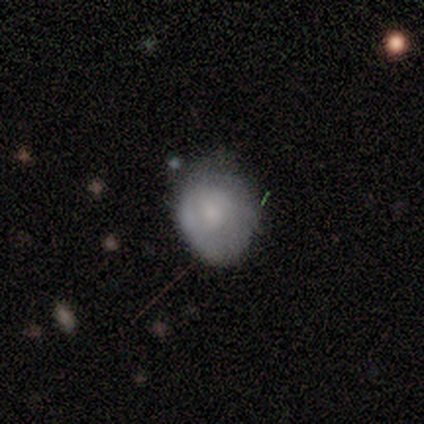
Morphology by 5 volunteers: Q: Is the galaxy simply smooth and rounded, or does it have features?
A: smooth — 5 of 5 (100%).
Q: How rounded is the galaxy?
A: in between — 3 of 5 (60%).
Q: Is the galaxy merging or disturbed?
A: none — 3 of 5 (60%).